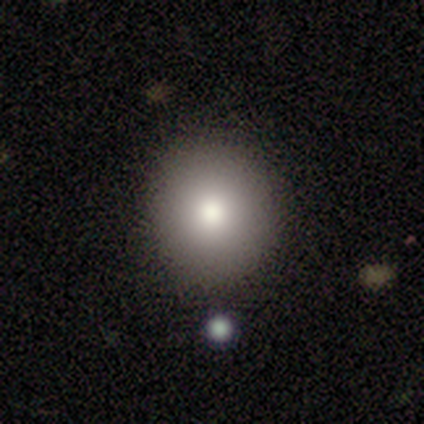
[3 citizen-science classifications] smooth 67%, star or artifact 33%, featured or disk 0%. Down the decision tree: how rounded — round (100%); merging — none (100%).